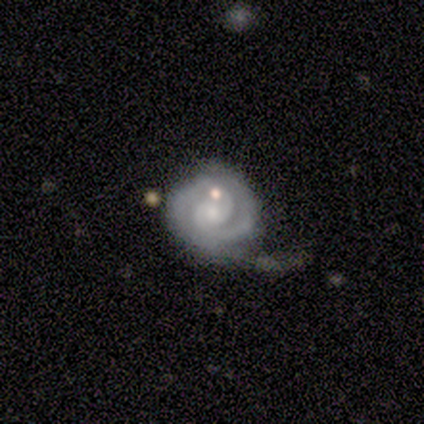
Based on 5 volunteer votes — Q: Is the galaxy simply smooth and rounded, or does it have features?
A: featured or disk — 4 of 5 (80%).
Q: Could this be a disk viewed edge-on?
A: no — 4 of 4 (100%).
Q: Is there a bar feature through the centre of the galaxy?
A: weak — 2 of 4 (50%, tied with no).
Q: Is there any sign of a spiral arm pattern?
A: yes — 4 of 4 (100%).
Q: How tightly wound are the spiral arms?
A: tight — 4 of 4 (100%).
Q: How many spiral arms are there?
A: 3 — 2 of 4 (50%, tied with can't tell).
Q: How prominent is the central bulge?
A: none — 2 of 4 (50%).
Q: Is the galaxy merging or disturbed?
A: none — 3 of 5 (60%).